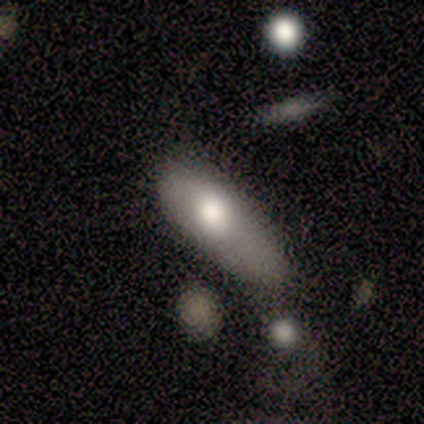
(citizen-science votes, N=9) A smooth galaxy with no disk features (78%) that is in between round and cigar-shaped (100%). Merging: minor disturbance (56%).